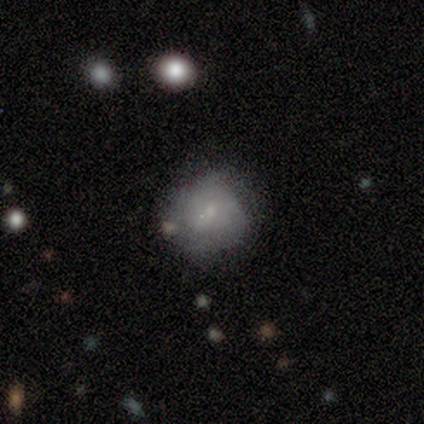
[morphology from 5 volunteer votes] A smooth galaxy with no disk features (60%) that is round (67%).

Vote fractions:
- Smooth or featured? smooth: 60% / featured or disk: 40% / star or artifact: 0%
- How rounded? round: 67% / in between: 33% / cigar-shaped: 0%
- Merging? none: 80% / minor disturbance: 20% / major disturbance: 0% / merger: 0%